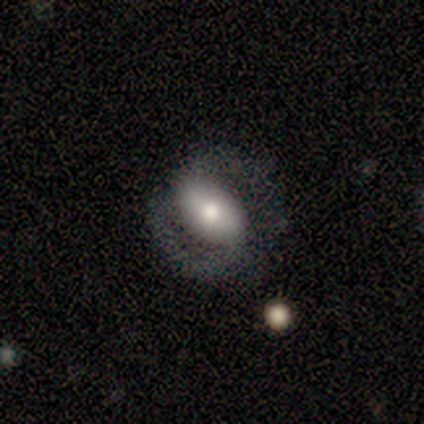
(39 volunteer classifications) smooth_or_featured: featured or disk (p=0.54) [alt: smooth p=0.38]
disk_edge_on: no (p=0.95) [alt: yes p=0.05]
bar: no (p=0.55) [alt: strong p=0.35]
has_spiral_arms: yes (p=0.70) [alt: no p=0.30]
spiral_winding: tight (p=0.36) [tied with: loose p=0.36]
spiral_arm_count: 2 (p=1.00)
bulge_size: moderate (p=0.55) [alt: large p=0.25]
merging: none (p=0.58) [alt: minor disturbance p=0.28]